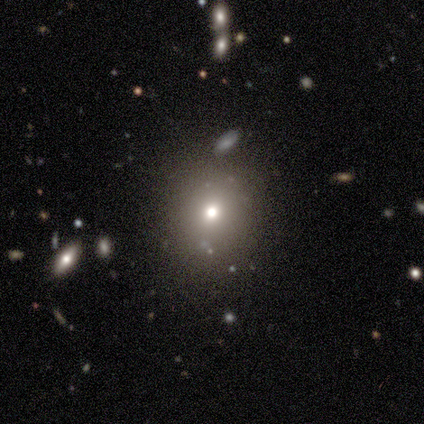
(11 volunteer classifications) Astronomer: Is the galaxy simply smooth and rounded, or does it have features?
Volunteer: smooth — 82%.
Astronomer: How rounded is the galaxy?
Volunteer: round — 67%.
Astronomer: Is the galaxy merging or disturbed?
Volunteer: none — 89%.